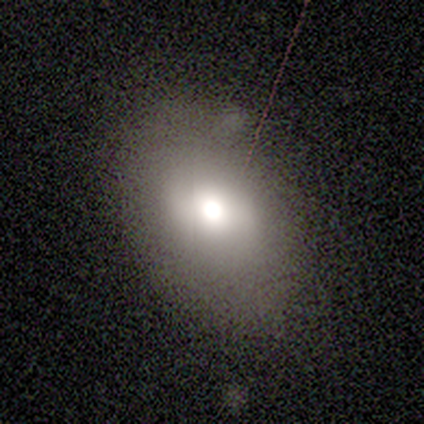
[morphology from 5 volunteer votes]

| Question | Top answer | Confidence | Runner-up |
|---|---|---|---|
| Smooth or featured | smooth | 80% | featured or disk (20%) |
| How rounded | in between | 75% | round (25%) |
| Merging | minor disturbance | 60% | none (40%) |